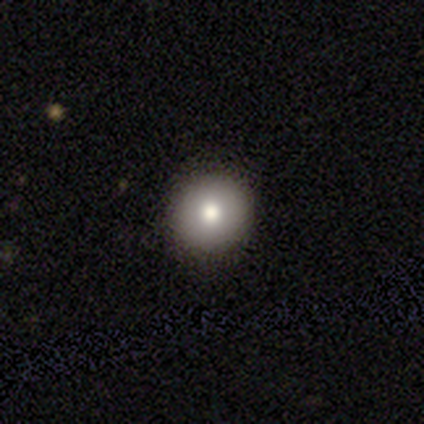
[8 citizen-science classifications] A smooth galaxy with no disk features (75%) that is round (83%). Merging: none (100%).